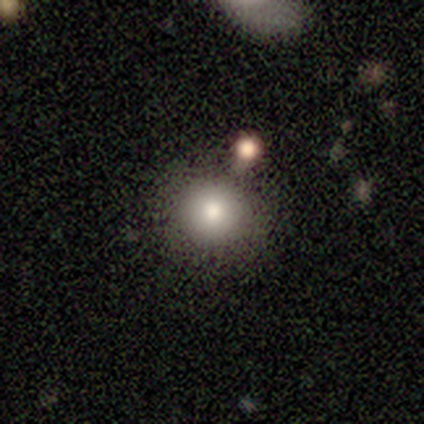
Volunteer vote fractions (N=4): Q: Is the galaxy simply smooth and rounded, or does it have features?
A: smooth — 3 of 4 (75%).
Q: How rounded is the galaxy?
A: round — 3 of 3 (100%).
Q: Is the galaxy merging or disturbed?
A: none — 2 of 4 (50%, tied with merger).